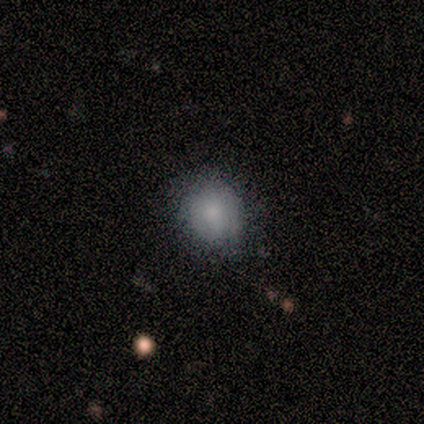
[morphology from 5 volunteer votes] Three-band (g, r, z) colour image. It shows a smooth galaxy with no disk features (80%) that is round (75%). Merging: none (100%).